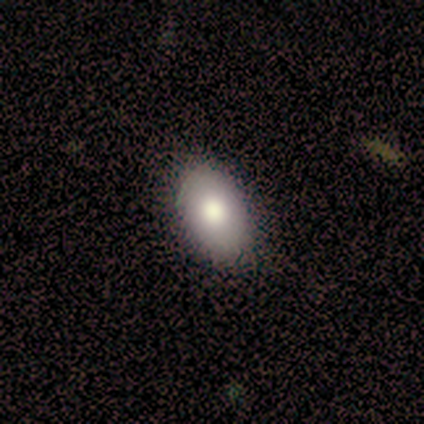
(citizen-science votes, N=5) smooth-or-featured: smooth: 60% | featured or disk: 40% | star or artifact: 0%
  how-rounded: in between: 67% | round: 33% | cigar-shaped: 0%
  merging: none: 80% | minor disturbance: 20% | major disturbance: 0% | merger: 0%